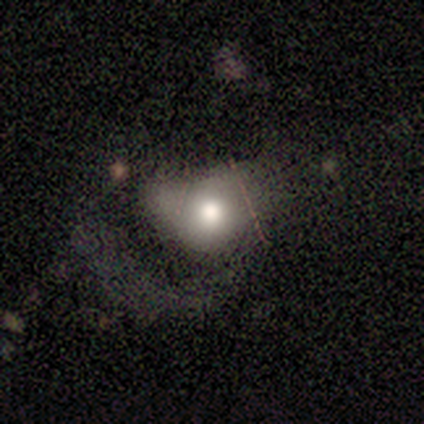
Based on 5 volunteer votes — This is likely a featured or disk galaxy (60%). It is clearly not viewed edge-on (100%). Bar: clearly no (100%). Spiral arm pattern: clearly no (100%). Central bulge: likely moderate (67%). Merging: likely major disturbance (60%).